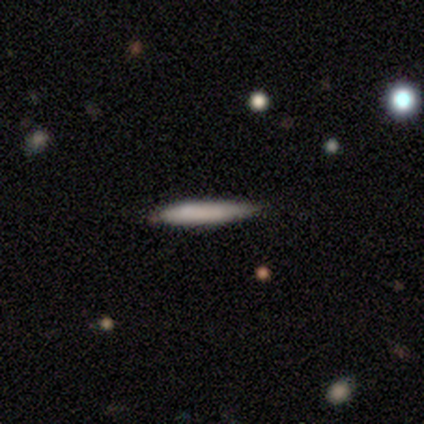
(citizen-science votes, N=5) This is clearly a smooth galaxy (80%). How rounded: clearly cigar-shaped (100%). Merging: marginally none (40%, tied with major disturbance).